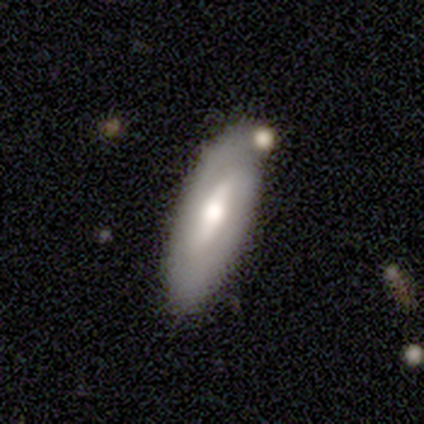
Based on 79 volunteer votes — A featured or disk galaxy (66%) with a weak bar (49%), no spiral arms (53%) and a moderate central bulge (67%).

Vote fractions:
- Smooth or featured? featured or disk: 66% / smooth: 32% / star or artifact: 3%
- Edge-on disk? no: 83% / yes: 17%
- Bar? weak: 49% / strong: 33% / no: 19%
- Spiral arms? no: 53% / yes: 47%
- Bulge size? moderate: 67% / small: 16% / large: 14% / dominant: 2% / none: 0%
- Merging? none: 39% / minor disturbance: 16% / merger: 8% / major disturbance: 1%